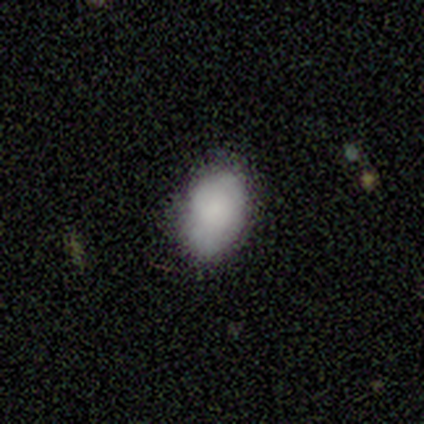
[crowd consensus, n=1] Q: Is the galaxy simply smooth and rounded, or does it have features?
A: smooth — 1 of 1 (100%).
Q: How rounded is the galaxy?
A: round — 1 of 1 (100%).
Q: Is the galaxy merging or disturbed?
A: none — 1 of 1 (100%).